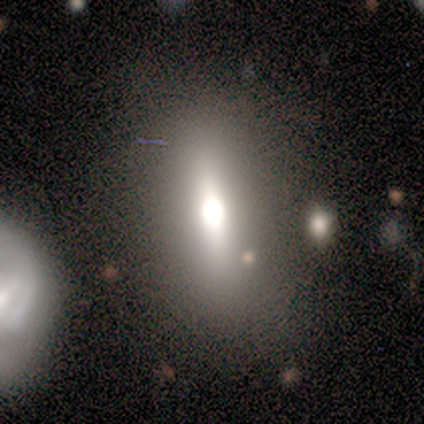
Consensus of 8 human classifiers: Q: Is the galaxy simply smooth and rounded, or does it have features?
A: smooth — 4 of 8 (50%).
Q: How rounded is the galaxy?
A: in between — 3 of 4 (75%).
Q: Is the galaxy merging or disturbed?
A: none — 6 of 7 (86%).